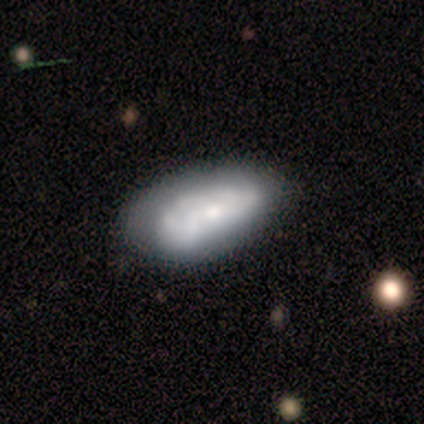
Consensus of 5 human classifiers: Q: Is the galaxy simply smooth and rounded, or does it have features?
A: featured or disk — 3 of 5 (60%).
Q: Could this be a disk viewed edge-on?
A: no — 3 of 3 (100%).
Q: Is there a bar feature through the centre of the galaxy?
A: weak — 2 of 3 (67%).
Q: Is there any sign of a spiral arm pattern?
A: no — 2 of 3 (67%).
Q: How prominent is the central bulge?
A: small — 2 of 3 (67%).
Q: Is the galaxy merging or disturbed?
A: minor disturbance — 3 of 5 (60%).